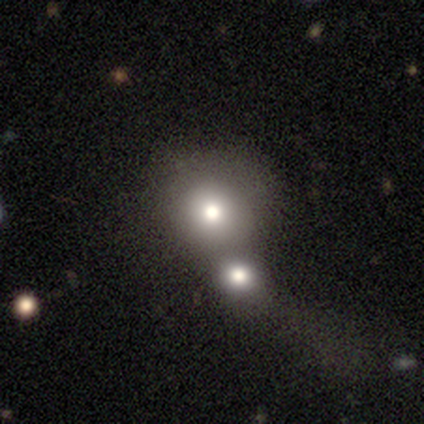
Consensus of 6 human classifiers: Smooth or featured: smooth — 50% (star or artifact — 33%)
How rounded: round — 100%
Merging: merger — 75% (none — 25%)